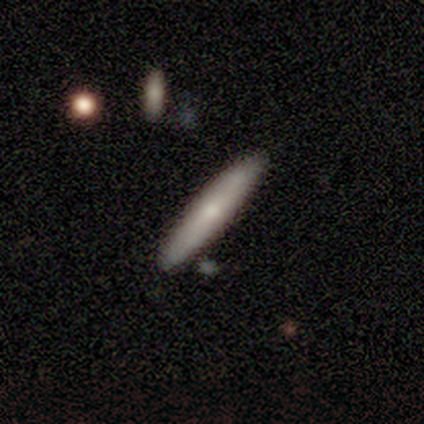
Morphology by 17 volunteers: Smooth or featured? featured or disk (59%)
Edge-on disk? yes (70%)
Edge-on bulge? rounded (86%)
Merging? none (88%)